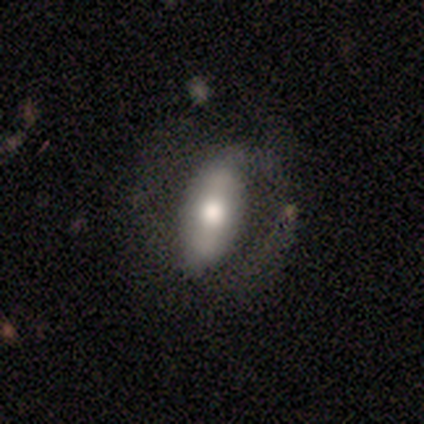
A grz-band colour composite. It shows a featured or disk galaxy (50%) with a strong bar (67%), 2 (50%, tied with can't tell) medium (100%) spiral arms (67%) and a moderate central bulge (67%). Merging: none (60%).